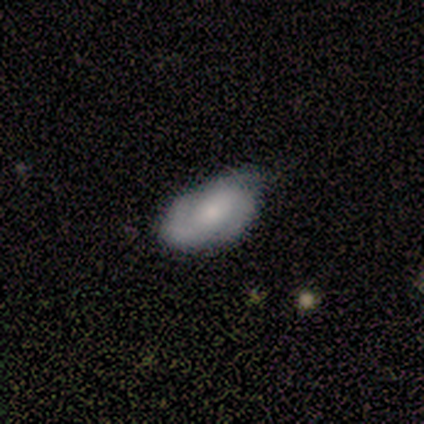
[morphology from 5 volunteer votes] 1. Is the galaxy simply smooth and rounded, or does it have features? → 80% featured or disk, 20% smooth, 0% star or artifact.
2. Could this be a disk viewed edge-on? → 100% no, 0% yes.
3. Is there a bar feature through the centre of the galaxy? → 100% no, 0% strong, 0% weak.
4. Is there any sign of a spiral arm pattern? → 75% yes, 25% no.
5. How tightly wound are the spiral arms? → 67% tight, 33% medium, 0% loose.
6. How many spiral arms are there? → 67% 3, 33% 2, 0% 1, 0% 4, 0% more than 4, 0% can't tell.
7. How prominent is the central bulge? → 50% small, 25% large, 25% moderate, 0% dominant, 0% none.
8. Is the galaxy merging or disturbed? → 60% minor disturbance, 20% none, 20% merger, 0% major disturbance.